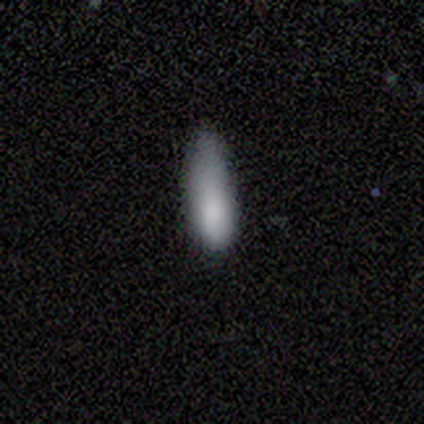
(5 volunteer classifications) Smooth or featured: smooth — 100%
How rounded: in between — 80% (cigar-shaped — 20%)
Merging: none — 60% (minor disturbance — 20%)